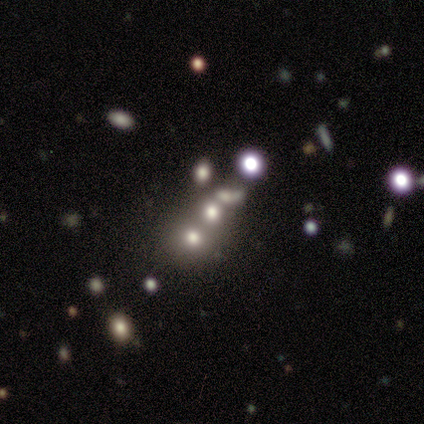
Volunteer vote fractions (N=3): This is marginally a smooth galaxy (33%, tied with featured or disk and star or artifact). How rounded: clearly in between (100%). Merging: clearly merger (100%).